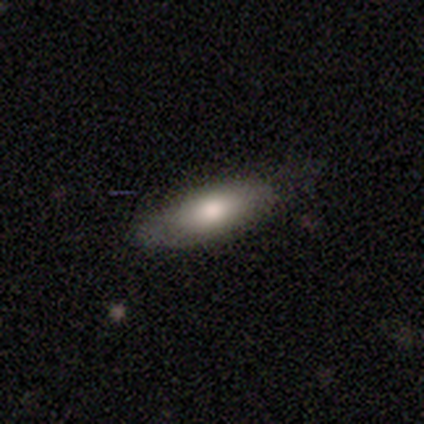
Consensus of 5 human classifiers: A smooth galaxy with no disk features (100%) that is in between round and cigar-shaped (60%).

Vote fractions:
- Smooth or featured? smooth: 100% / featured or disk: 0% / star or artifact: 0%
- How rounded? in between: 60% / cigar-shaped: 40% / round: 0%
- Merging? none: 80% / major disturbance: 20% / minor disturbance: 0% / merger: 0%